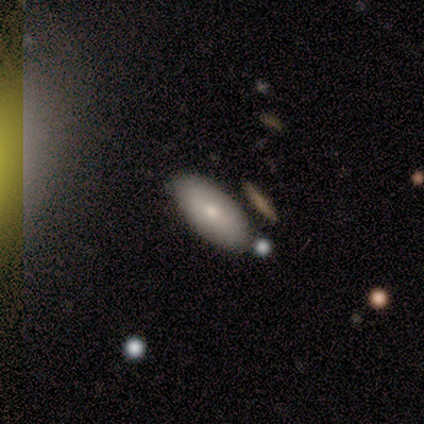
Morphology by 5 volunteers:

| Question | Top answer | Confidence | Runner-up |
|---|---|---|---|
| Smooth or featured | smooth | 100% | — |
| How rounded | in between | 80% | cigar-shaped (20%) |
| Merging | none | 60% | minor disturbance (20%) |